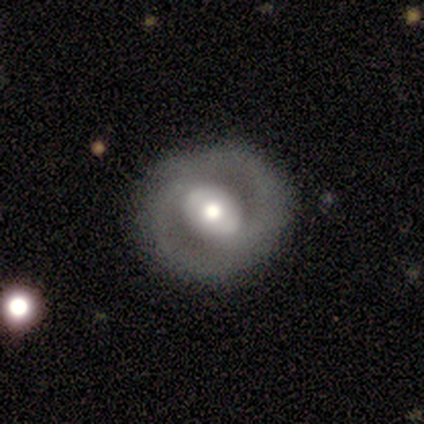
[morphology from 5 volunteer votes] Q: Smooth or featured?
A: featured or disk (80%); runner-up: smooth (20%)
Q: Edge-on disk?
A: no (100%)
Q: Bar?
A: weak (50%); tied with: no (50%)
Q: Spiral arms?
A: yes (50%); tied with: no (50%)
Q: Spiral winding?
A: tight (50%); tied with: medium (50%)
Q: Spiral arm count?
A: 2 (100%)
Q: Bulge size?
A: large (50%); tied with: moderate (50%)
Q: Merging?
A: none (100%)